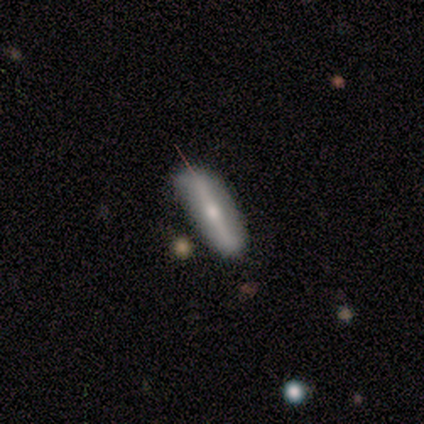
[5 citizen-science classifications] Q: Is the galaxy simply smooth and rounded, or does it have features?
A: featured or disk — 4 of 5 (80%).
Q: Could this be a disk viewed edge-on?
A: yes — 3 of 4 (75%).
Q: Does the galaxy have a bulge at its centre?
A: rounded — 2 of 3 (67%).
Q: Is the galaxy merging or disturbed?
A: none — 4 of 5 (80%).